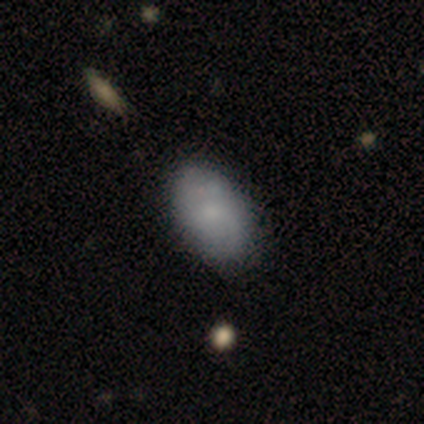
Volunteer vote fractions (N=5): smooth-or-featured: smooth: 60% | featured or disk: 40% | star or artifact: 0%
  how-rounded: in between: 100% | round: 0% | cigar-shaped: 0%
  merging: none: 100% | minor disturbance: 0% | major disturbance: 0% | merger: 0%